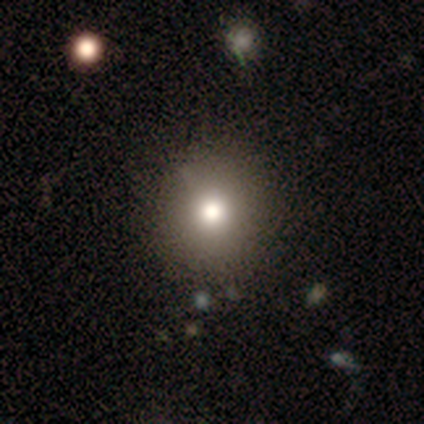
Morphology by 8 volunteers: A smooth galaxy with no disk features (88%) that is round (100%).

Vote fractions:
- Smooth or featured? smooth: 88% / featured or disk: 12% / star or artifact: 0%
- How rounded? round: 100% / in between: 0% / cigar-shaped: 0%
- Merging? none: 88% / minor disturbance: 12% / major disturbance: 0% / merger: 0%